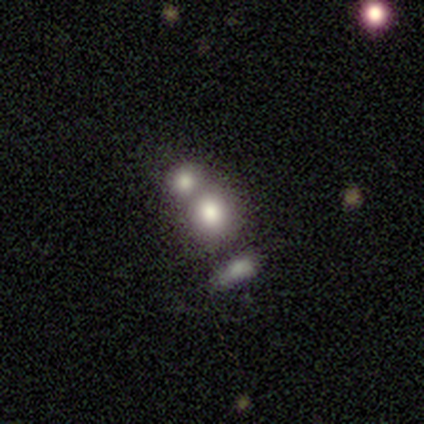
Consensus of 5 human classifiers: This is clearly a smooth galaxy (80%). How rounded: likely round (75%). Merging: possibly none (50%, tied with merger).